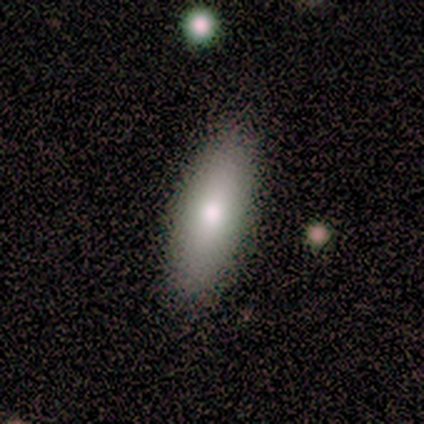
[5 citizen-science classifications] Smooth or featured: smooth — 100%
How rounded: in between — 100%
Merging: none — 100%